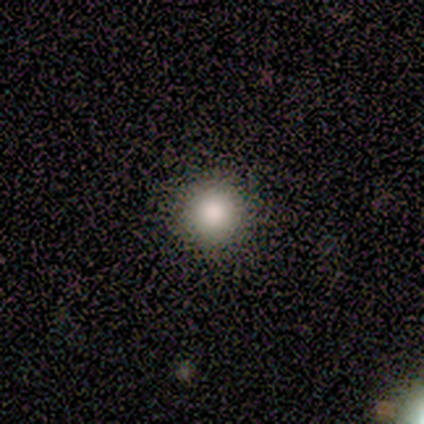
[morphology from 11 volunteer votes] Smooth or featured? smooth (73%)
How rounded? round (100%)
Merging? none (100%)